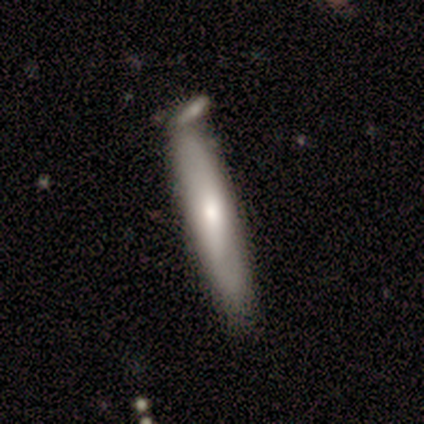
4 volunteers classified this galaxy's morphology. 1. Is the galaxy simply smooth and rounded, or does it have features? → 75% smooth, 25% featured or disk, 0% star or artifact.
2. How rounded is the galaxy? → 100% cigar-shaped, 0% round, 0% in between.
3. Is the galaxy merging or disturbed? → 50% none (tied), 50% minor disturbance (tied), 0% major disturbance, 0% merger.